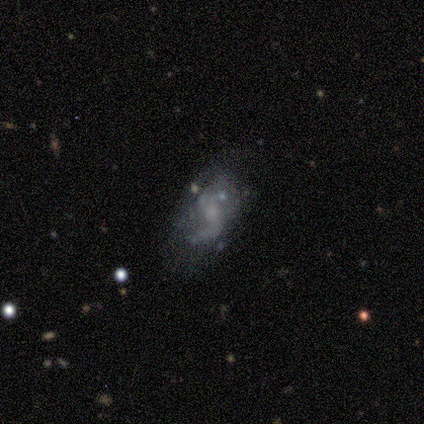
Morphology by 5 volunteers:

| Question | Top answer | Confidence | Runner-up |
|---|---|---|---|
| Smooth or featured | featured or disk | 80% | smooth (20%) |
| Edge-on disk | no | 100% | — |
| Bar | weak | 75% | no (25%) |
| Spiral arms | yes | 100% | — |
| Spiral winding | loose | 100% | — |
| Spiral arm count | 1 | 50% | 2 (25%) |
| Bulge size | small | 50% | moderate (25%) |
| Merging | none | 60% | minor disturbance (20%) |